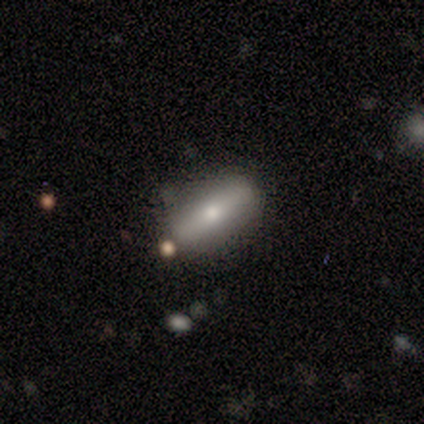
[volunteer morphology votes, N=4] Smooth or featured: smooth — 50% (tied with featured or disk — 50%)
How rounded: in between — 50% (tied with cigar-shaped — 50%)
Merging: none — 100%